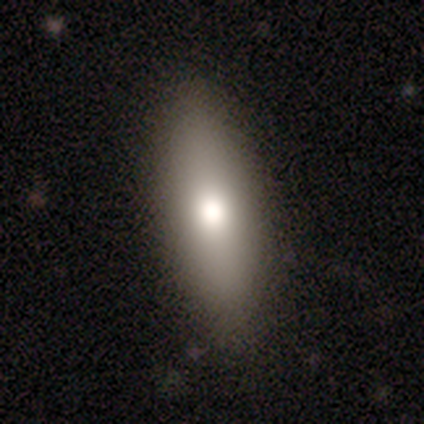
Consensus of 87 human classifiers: A smooth galaxy with no disk features (75%) that is in between round and cigar-shaped (49%, tied with cigar-shaped).

Vote fractions:
- Smooth or featured? smooth: 75% / featured or disk: 15% / star or artifact: 10%
- How rounded? in between: 49% (tied) / cigar-shaped: 49% (tied) / round: 2%
- Merging? none: 91% / minor disturbance: 8% / major disturbance: 1% / merger: 0%